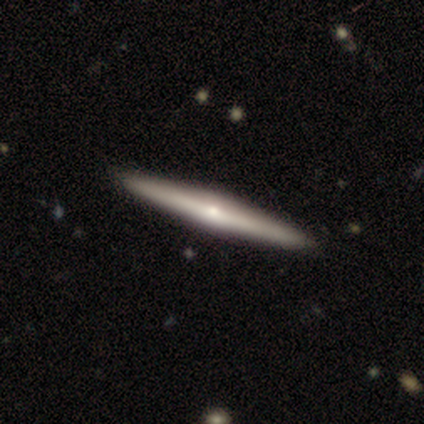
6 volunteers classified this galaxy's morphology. smooth-or-featured: featured or disk: 67% | smooth: 33% | star or artifact: 0%
  disk-edge-on: yes: 100% | no: 0%
    edge-on-bulge: none: 50% (tied) | rounded: 50% (tied) | boxy: 0%
  merging: none: 100% | minor disturbance: 0% | major disturbance: 0% | merger: 0%